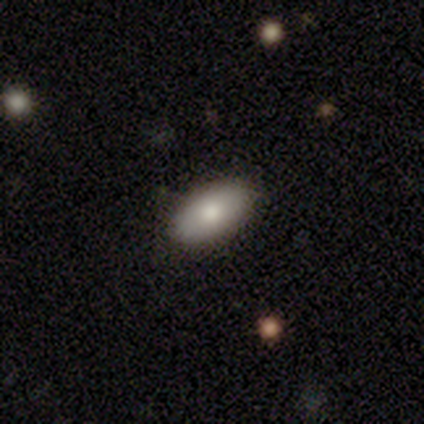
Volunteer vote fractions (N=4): This is clearly a smooth galaxy (100%). How rounded: clearly in between (100%). Merging: likely none (75%).